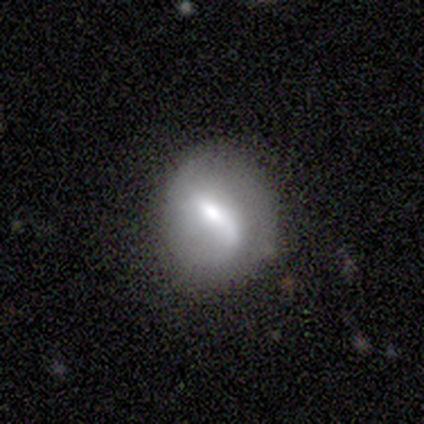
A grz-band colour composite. It shows a featured or disk galaxy (60%) with a strong bar (33%, tied with weak and no), no spiral arms (67%) and a dominant central bulge (33%, tied with large and moderate). Merging: none (60%).